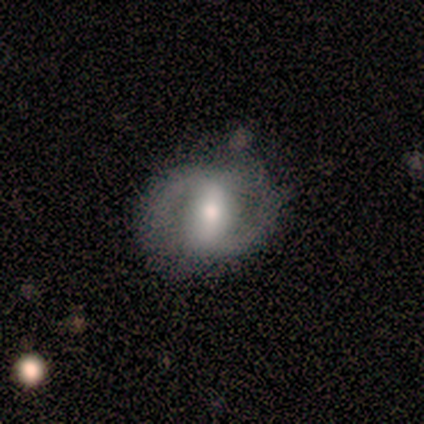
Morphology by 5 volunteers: type=featured or disk (80%); edge-on=no (100%); bar=strong (75%); spiral arms=yes (100%); winding=medium (100%); arm count=2 (75%); bulge=small (50%); merging=none (75%).